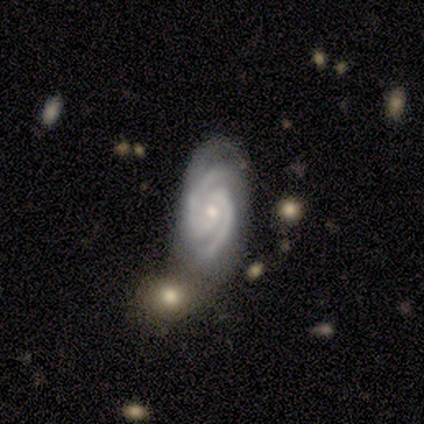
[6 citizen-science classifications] A featured or disk galaxy (100%) with no bar (60%), 2 (80%) tight (80%) spiral arms (100%) and a small central bulge (80%). Merging: none (50%).